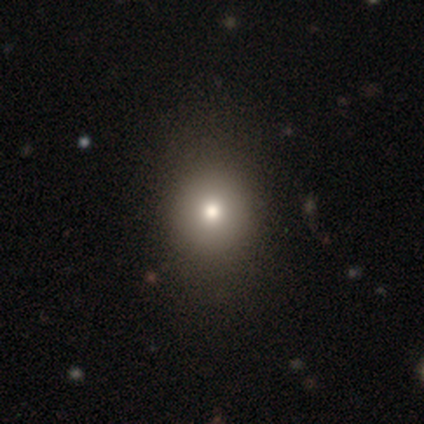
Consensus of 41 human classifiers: Smooth or featured?
  - smooth: 71% *
  - featured or disk: 17%
  - star or artifact: 12%
How rounded?
  - round: 66% *
  - in between: 34%
  - cigar-shaped: 0%
Merging?
  - none: 58% *
  - major disturbance: 6%
  - minor disturbance: 3%
  - merger: 0%